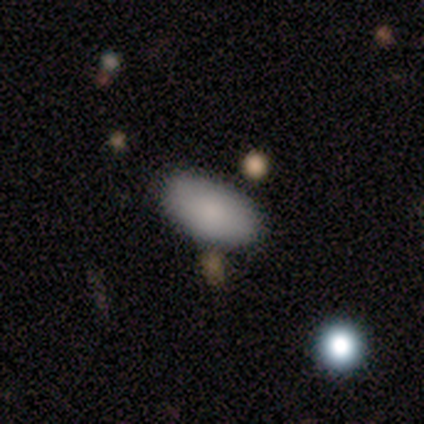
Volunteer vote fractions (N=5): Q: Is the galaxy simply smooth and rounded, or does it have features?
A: smooth — 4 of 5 (80%).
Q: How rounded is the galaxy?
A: in between — 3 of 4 (75%).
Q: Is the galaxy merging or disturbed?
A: none — 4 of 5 (80%).